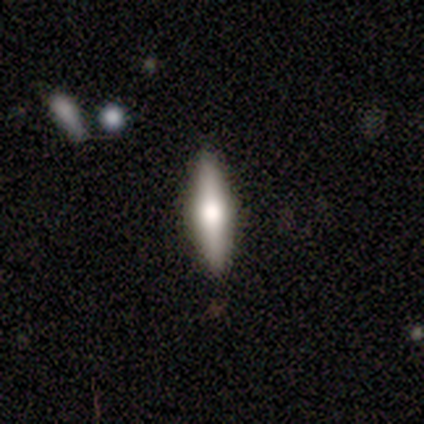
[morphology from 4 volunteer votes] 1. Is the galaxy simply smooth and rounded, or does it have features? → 75% featured or disk, 25% smooth, 0% star or artifact.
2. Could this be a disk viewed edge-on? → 67% yes, 33% no.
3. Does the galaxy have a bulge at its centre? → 100% rounded, 0% boxy, 0% none.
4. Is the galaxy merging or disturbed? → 100% none, 0% minor disturbance, 0% major disturbance, 0% merger.